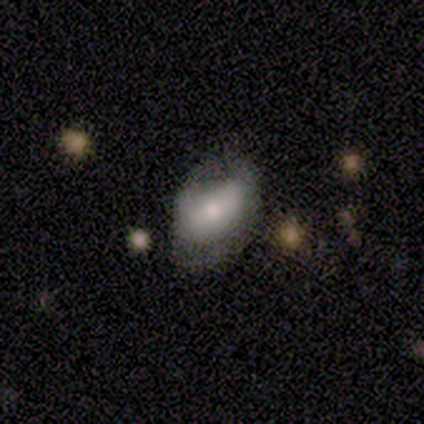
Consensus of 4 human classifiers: This is possibly a smooth galaxy (50%, tied with featured or disk). How rounded: clearly in between (100%). Merging: possibly none (50%, tied with minor disturbance).